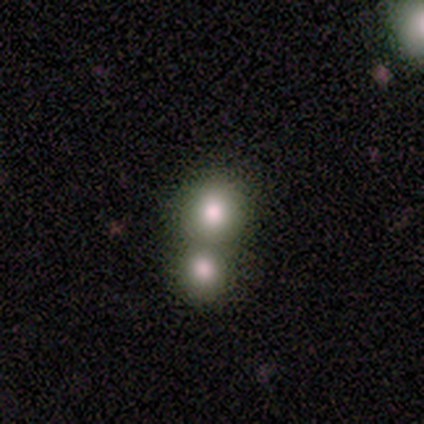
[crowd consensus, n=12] Q: Smooth or featured?
A: smooth (75%); runner-up: featured or disk (17%)
Q: How rounded?
A: round (89%); runner-up: in between (11%)
Q: Merging?
A: merger (73%); runner-up: none (27%)